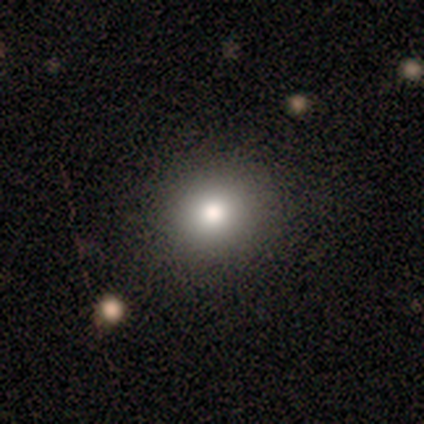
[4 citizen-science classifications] Overall: featured or disk (50%; smooth 25%). Edge-on disk: no (100%). Bar: no (100%). Spiral arms: no (100%). Bulge size: moderate (100%). Merging: none (100%).